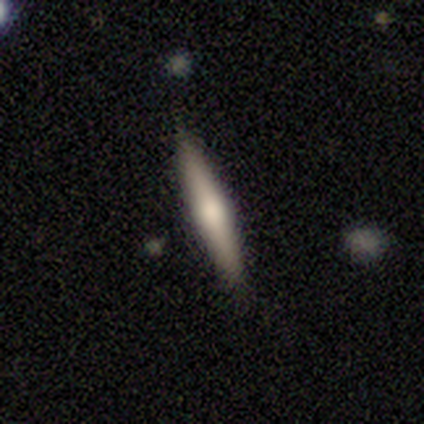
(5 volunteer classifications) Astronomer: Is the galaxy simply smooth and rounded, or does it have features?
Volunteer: featured or disk — 80%.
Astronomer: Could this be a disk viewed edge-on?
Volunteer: yes — 100%.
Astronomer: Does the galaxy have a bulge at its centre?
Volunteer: rounded — 100%.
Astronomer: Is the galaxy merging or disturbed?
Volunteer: none — 80%.